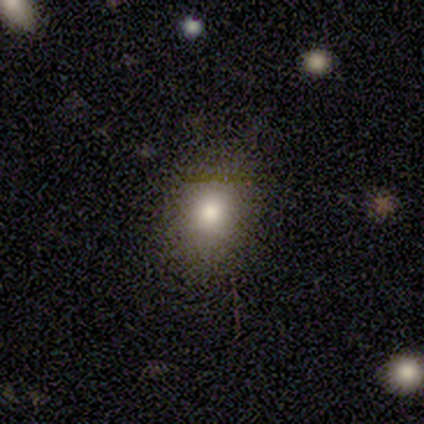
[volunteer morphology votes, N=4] A smooth galaxy with no disk features (50%) that is round (100%). Merging: none (67%).